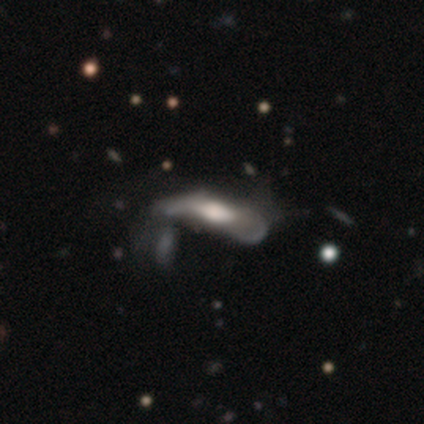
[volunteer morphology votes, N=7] Q: Smooth or featured?
A: smooth (57%); runner-up: featured or disk (29%)
Q: How rounded?
A: in between (100%)
Q: Merging?
A: minor disturbance (33%); tied with: major disturbance (33%)